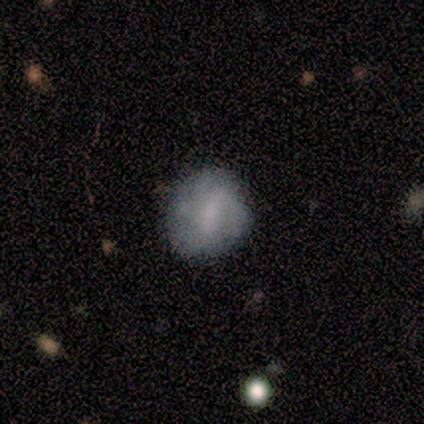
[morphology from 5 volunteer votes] A smooth galaxy with no disk features (40%, tied with featured or disk) that is round (50%, tied with in between).

Vote fractions:
- Smooth or featured? smooth: 40% (tied) / featured or disk: 40% (tied) / star or artifact: 20%
- How rounded? round: 50% (tied) / in between: 50% (tied) / cigar-shaped: 0%
- Merging? none: 100% / minor disturbance: 0% / major disturbance: 0% / merger: 0%